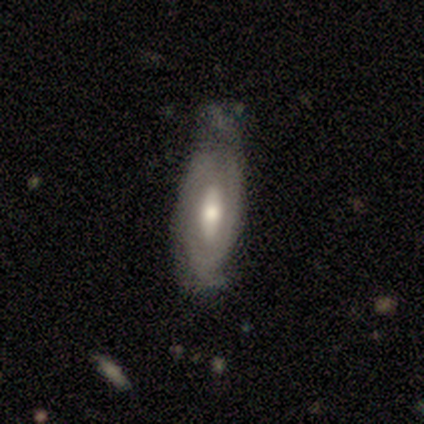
Smooth or featured: featured or disk — 100%
Edge-on disk: no — 100%
Bar: weak — 60% (no — 40%)
Spiral arms: yes — 100%
Spiral winding: tight — 60% (medium — 40%)
Spiral arm count: can't tell — 60% (2 — 40%)
Bulge size: moderate — 60% (large — 20%)
Merging: none — 60% (minor disturbance — 40%)